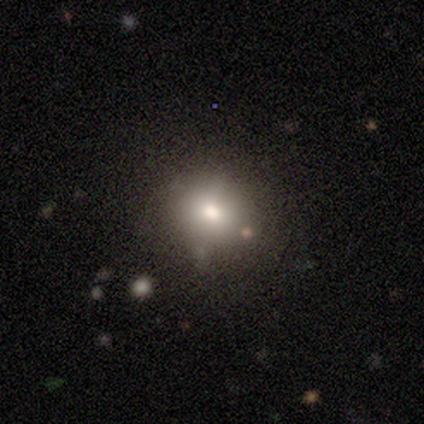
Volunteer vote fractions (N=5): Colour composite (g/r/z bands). It shows a smooth galaxy with no disk features (40%, tied with star or artifact) that is round (50%, tied with in between). Merging: none (67%).